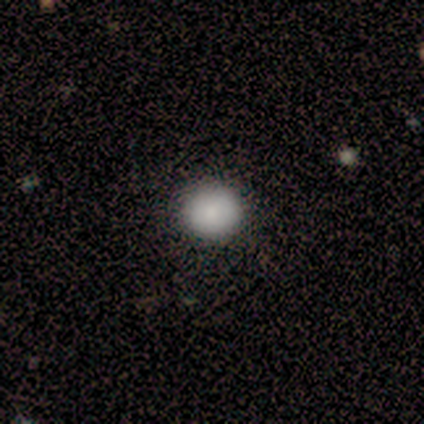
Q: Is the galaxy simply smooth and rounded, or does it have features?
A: smooth — 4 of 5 (80%).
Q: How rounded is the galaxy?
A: round — 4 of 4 (100%).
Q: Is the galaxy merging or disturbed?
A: none — 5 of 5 (100%).